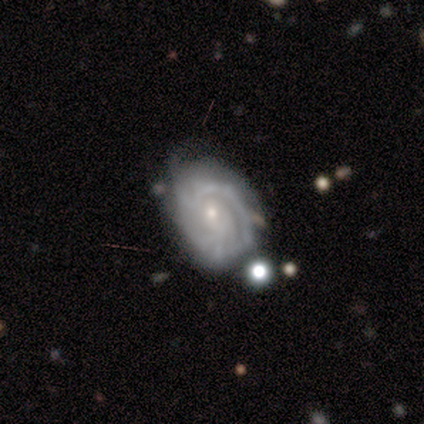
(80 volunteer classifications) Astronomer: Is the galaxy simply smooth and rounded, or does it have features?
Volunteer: featured or disk — 90%.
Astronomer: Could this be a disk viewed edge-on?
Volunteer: no — 96%.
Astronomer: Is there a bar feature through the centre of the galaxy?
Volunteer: no — 83%.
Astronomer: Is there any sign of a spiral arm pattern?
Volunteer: yes — 96%.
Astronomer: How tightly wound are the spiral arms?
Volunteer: tight — 73%.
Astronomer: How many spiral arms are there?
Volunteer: can't tell — 38% (runner-up: 2, 32%).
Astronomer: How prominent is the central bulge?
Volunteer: small — 65%.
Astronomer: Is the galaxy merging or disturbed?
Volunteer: none — 55%.